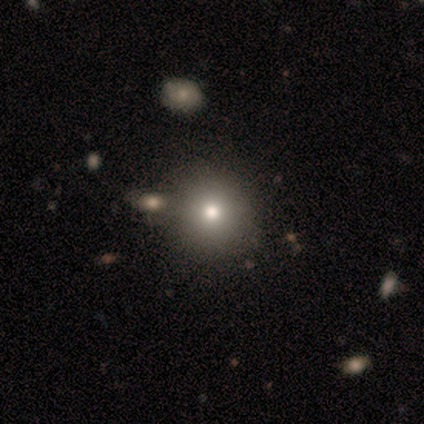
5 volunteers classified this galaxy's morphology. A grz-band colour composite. It shows a smooth galaxy with no disk features (80%) that is round (100%). Merging: none (80%).